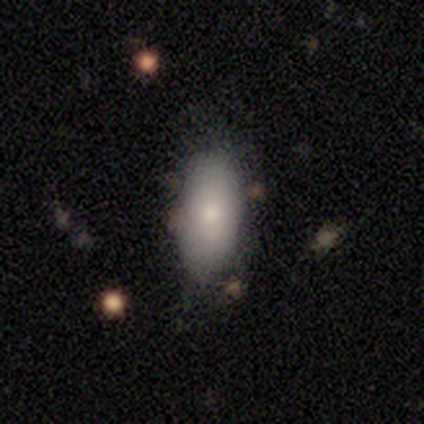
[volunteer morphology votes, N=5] This appears to be a smooth galaxy with no disk features (80%) that is in between round and cigar-shaped (100%). Merging: none (50%, tied with minor disturbance).